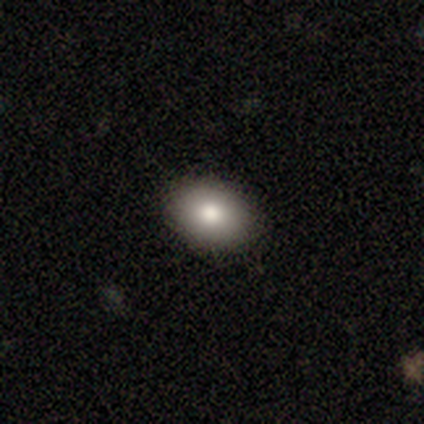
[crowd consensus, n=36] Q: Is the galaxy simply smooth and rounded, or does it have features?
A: smooth — 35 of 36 (97%).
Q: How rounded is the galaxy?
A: in between — 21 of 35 (60%).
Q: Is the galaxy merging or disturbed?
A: none — 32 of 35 (91%).